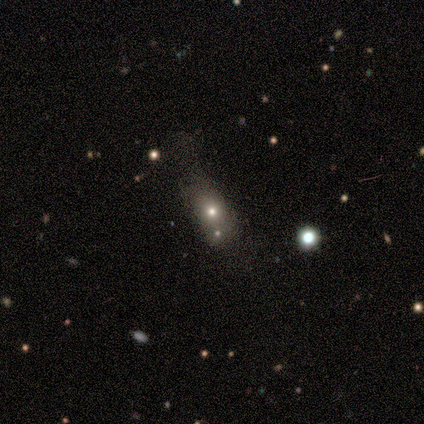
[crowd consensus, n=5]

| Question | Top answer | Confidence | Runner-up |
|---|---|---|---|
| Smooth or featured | smooth | 80% | featured or disk (20%) |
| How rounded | in between | 100% | — |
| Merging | none | 40% | minor disturbance (20%) |